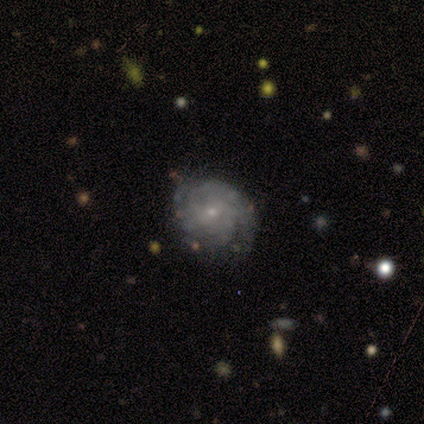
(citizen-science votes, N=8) Smooth or featured? featured or disk (88%)
Edge-on disk? no (100%)
Bar? no (57%)
Spiral arms? yes (100%)
Spiral winding? tight (86%)
Spiral arm count? 2 (43%, tied with can't tell)
Bulge size? small (100%)
Merging? none (75%)